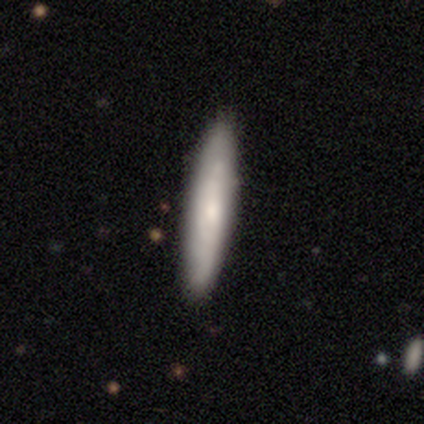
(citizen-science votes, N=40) This appears to be a smooth galaxy with no disk features (65%) that is cigar-shaped (100%). Merging: none (57%).